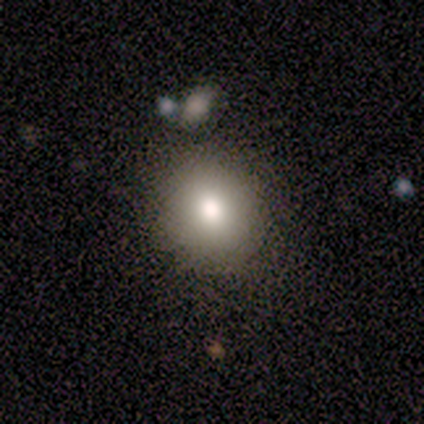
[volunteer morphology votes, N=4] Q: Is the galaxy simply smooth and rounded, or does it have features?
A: smooth — 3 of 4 (75%).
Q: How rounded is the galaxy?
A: round — 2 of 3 (67%).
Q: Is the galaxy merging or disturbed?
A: none — 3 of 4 (75%).